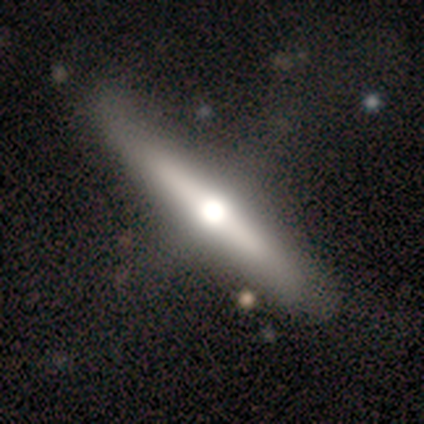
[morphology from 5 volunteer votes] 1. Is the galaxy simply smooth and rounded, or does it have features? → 80% featured or disk, 20% smooth, 0% star or artifact.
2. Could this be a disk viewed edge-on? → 100% yes, 0% no.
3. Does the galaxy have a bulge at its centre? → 75% rounded, 25% boxy, 0% none.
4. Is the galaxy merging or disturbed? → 60% none, 20% minor disturbance, 20% major disturbance, 0% merger.